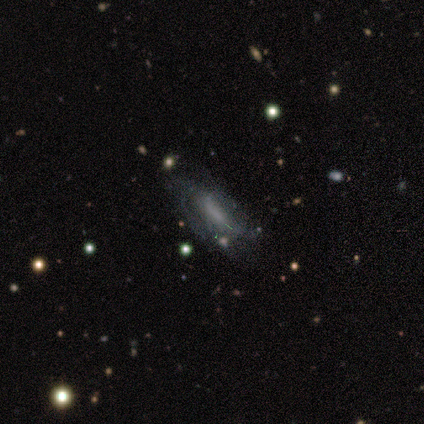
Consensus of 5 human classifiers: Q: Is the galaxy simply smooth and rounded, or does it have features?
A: smooth — 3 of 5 (60%).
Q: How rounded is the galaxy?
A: in between — 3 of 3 (100%).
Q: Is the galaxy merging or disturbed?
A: none — 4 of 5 (80%).